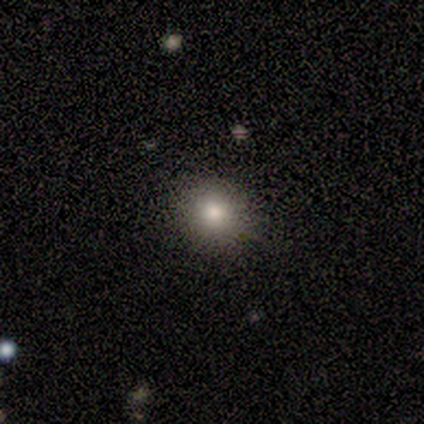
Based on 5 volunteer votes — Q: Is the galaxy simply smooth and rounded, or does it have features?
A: smooth — 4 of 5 (80%).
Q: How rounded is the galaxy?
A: round — 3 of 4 (75%).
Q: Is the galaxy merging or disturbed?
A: none — 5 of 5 (100%).